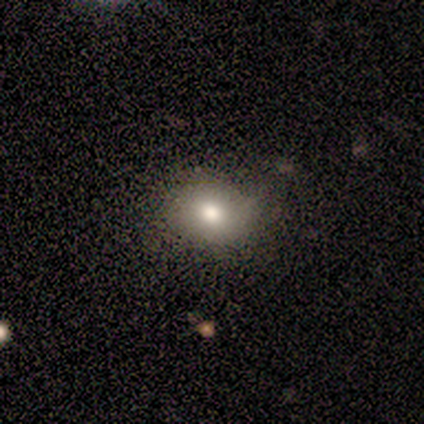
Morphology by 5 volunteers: type=smooth (60%); roundness=in between (67%); merging=none (100%).